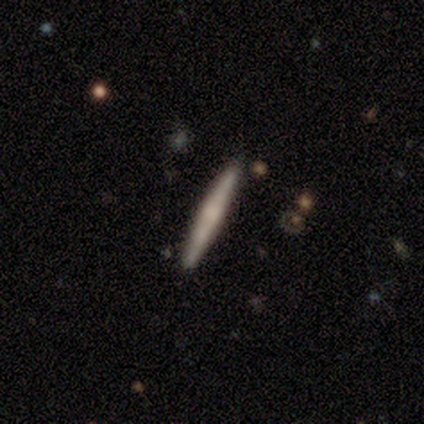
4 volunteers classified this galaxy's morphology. Q: Smooth or featured?
A: featured or disk (100%)
Q: Edge-on disk?
A: yes (100%)
Q: Edge-on bulge?
A: none (50%); tied with: rounded (50%)
Q: Merging?
A: none (100%)